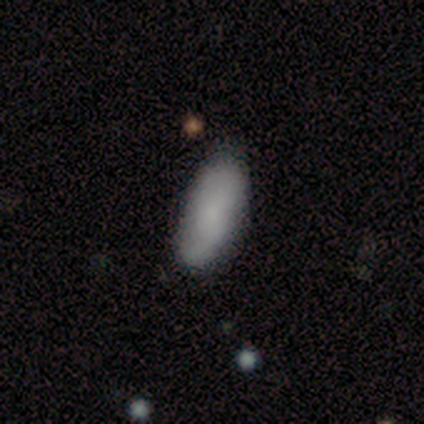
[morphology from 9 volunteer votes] Smooth or featured? smooth (56%)
How rounded? in between (100%)
Merging? none (57%)